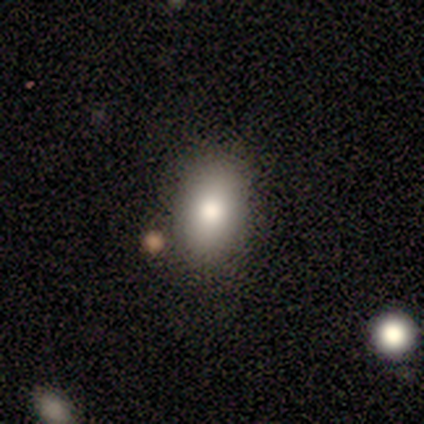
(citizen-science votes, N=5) smooth 80%, star or artifact 20%, featured or disk 0%. Down the decision tree: how rounded — in between (50%); merging — none (75%).